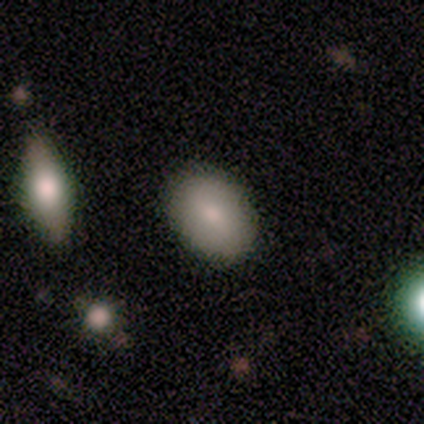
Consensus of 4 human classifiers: A smooth galaxy with no disk features (50%, tied with featured or disk) that is in between round and cigar-shaped (100%).

Vote fractions:
- Smooth or featured? smooth: 50% (tied) / featured or disk: 50% (tied) / star or artifact: 0%
- How rounded? in between: 100% / round: 0% / cigar-shaped: 0%
- Merging? none: 100% / minor disturbance: 0% / major disturbance: 0% / merger: 0%